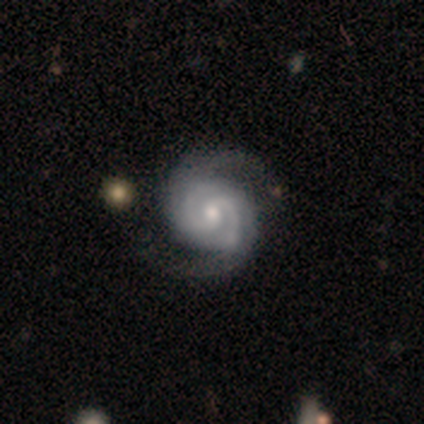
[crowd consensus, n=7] Smooth or featured? 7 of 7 (100%) said featured or disk. Edge-on disk? 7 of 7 (100%) said no. Bar? 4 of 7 (57%) said weak. Spiral arms? 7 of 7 (100%) said yes. Spiral winding? 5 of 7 (71%) said tight. Spiral arm count? 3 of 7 (43%) said 2. Bulge size? 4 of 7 (57%) said moderate. Merging? 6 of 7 (86%) said none.